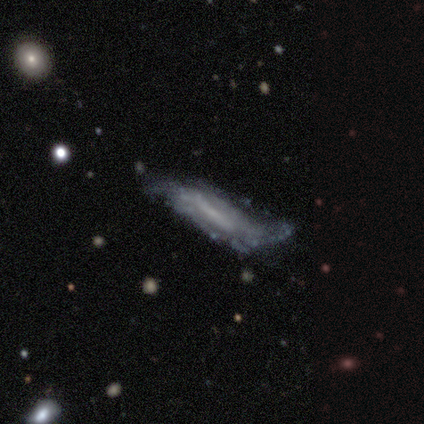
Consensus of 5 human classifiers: featured or disk 60%, smooth 40%, star or artifact 0%. Down the decision tree: edge-on disk — no (100%); bar — weak (67%); spiral arms — yes (100%); spiral arm count — 2 (67%); spiral winding — tight (33%, tied with medium and loose); bulge size — none (67%); merging — none (40%, tied with minor disturbance).